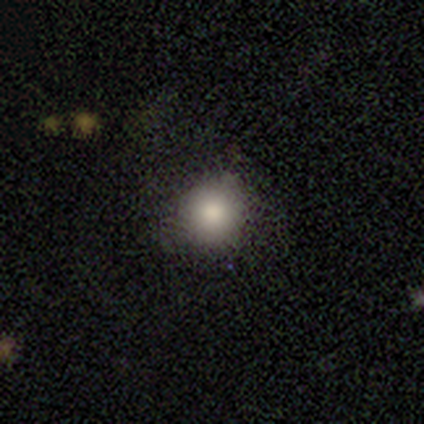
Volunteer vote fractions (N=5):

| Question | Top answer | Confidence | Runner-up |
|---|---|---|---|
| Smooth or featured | smooth | 80% | featured or disk (20%) |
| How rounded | round | 75% | in between (25%) |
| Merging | none | 80% | major disturbance (20%) |